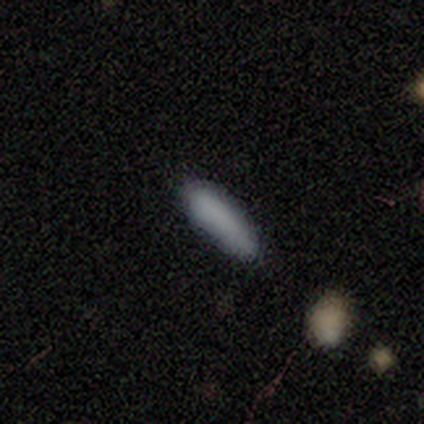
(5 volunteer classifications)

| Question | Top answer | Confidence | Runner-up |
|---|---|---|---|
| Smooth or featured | smooth | 100% | — |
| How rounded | cigar-shaped | 60% | in between (40%) |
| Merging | none | 100% | — |